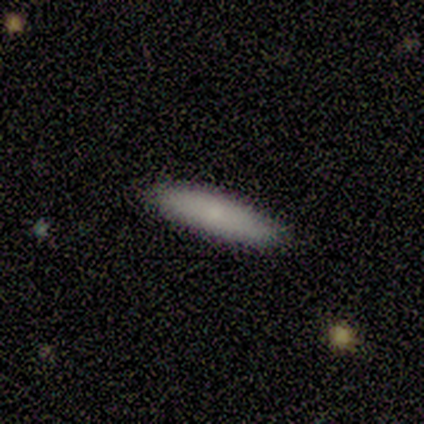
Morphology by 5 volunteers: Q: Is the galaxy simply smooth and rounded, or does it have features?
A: smooth — 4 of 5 (80%).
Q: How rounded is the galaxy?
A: cigar-shaped — 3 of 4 (75%).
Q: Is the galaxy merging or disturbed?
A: none — 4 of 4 (100%).